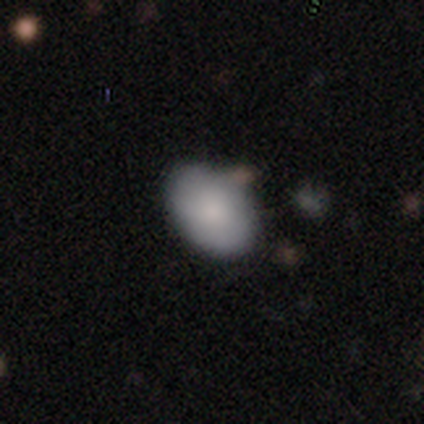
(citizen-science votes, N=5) smooth_or_featured: smooth (p=0.80) [alt: featured or disk p=0.20]
how_rounded: in between (p=1.00)
merging: none (p=0.60) [alt: minor disturbance p=0.20]